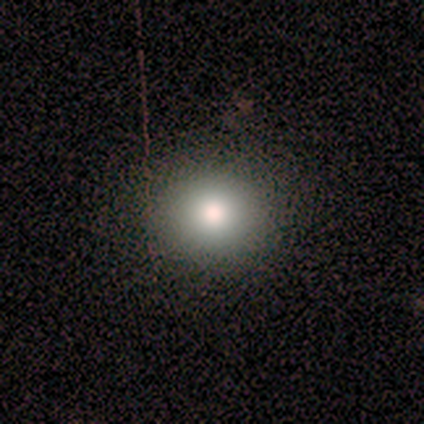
smooth-or-featured: smooth: 60% | star or artifact: 40% | featured or disk: 0%
  how-rounded: round: 67% | in between: 33% | cigar-shaped: 0%
  merging: none: 100% | minor disturbance: 0% | major disturbance: 0% | merger: 0%